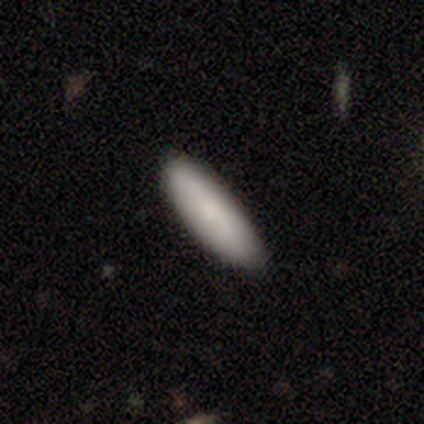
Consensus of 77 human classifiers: Smooth or featured? 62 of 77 (81%) said smooth. How rounded? 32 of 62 (52%) said in between. Merging? 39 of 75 (52%) said none.